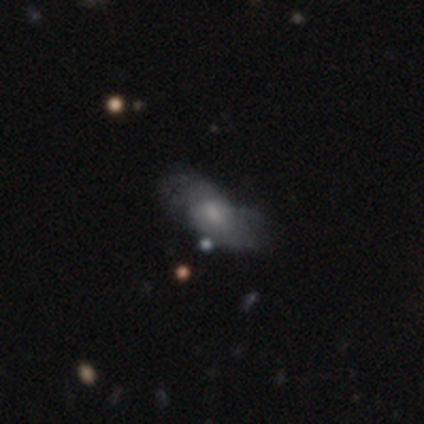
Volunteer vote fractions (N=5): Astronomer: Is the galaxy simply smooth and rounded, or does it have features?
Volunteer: featured or disk — 80%.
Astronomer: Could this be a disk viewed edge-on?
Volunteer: no — 100%.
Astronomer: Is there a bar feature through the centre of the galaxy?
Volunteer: no — 100%.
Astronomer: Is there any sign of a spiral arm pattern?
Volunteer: yes — 75%.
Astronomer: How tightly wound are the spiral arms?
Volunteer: loose — 67%.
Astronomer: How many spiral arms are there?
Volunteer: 2 — 33%, tied with 3 and can't tell at 33%.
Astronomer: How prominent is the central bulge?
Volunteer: moderate — 50%, tied with small at 50%.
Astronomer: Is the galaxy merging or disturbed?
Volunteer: none — 60%.